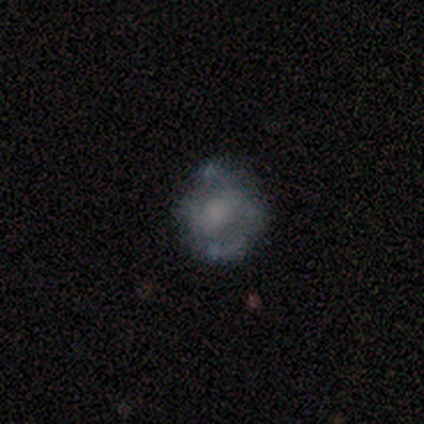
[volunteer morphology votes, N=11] smooth_or_featured: featured or disk (p=0.73) [alt: smooth p=0.27]
disk_edge_on: no (p=1.00)
bar: no (p=0.75) [alt: weak p=0.25]
has_spiral_arms: no (p=0.75) [alt: yes p=0.25]
bulge_size: none (p=0.62) [alt: small p=0.25]
merging: none (p=0.55) [alt: minor disturbance p=0.36]